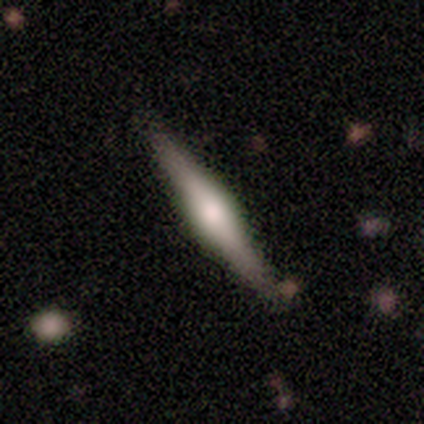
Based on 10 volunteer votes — This appears to be a featured or disk galaxy (70%) viewed edge-on (100%) with a rounded central bulge (57%). Merging: none (100%).